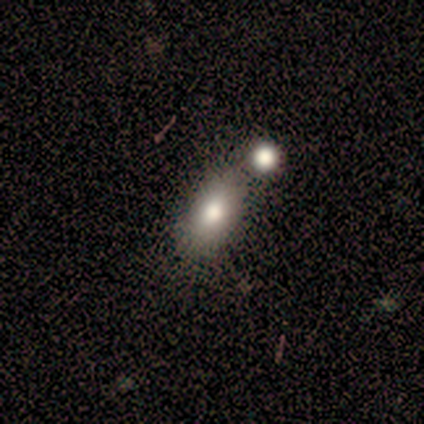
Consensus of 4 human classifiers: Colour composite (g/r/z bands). It shows a smooth galaxy with no disk features (75%) that is in between round and cigar-shaped (100%). Merging: none (75%).